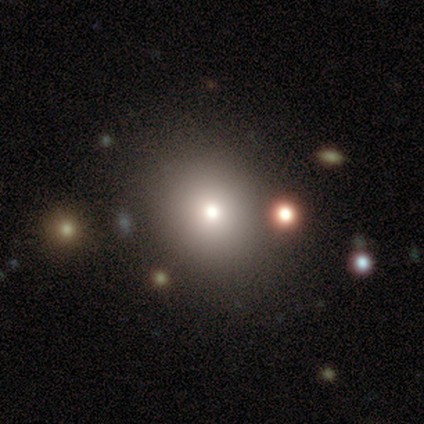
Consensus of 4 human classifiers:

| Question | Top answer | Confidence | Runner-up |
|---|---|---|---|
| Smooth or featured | smooth | 75% | star or artifact (25%) |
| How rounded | round | 67% | in between (33%) |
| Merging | none | 100% | — |